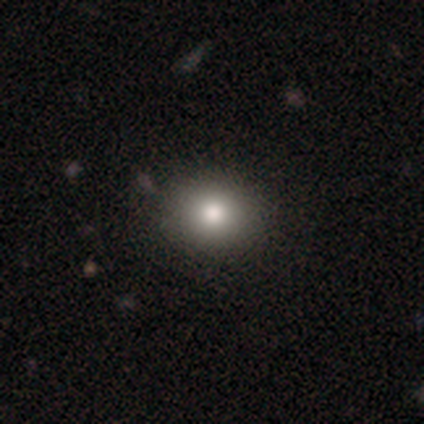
This is likely a smooth galaxy (73%). How rounded: likely round (77%). Merging: clearly none (94%).